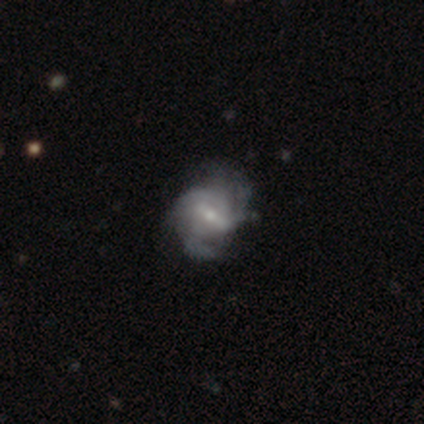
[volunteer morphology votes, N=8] smooth_or_featured: featured or disk (p=0.88) [alt: smooth p=0.12]
disk_edge_on: no (p=1.00)
bar: weak (p=0.57) [alt: strong p=0.29]
has_spiral_arms: yes (p=0.86) [alt: no p=0.14]
spiral_winding: medium (p=0.83) [alt: tight p=0.17]
spiral_arm_count: can't tell (p=0.50) [alt: 3 p=0.33]
bulge_size: small (p=0.57) [alt: moderate p=0.29]
merging: none (p=0.62) [alt: minor disturbance p=0.38]